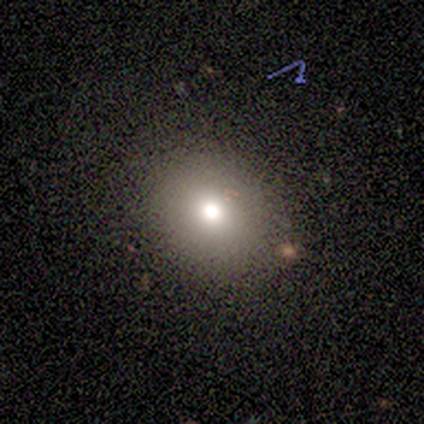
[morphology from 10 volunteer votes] A smooth galaxy with no disk features (80%) that is in between round and cigar-shaped (62%).

Vote fractions:
- Smooth or featured? smooth: 80% / star or artifact: 20% / featured or disk: 0%
- How rounded? in between: 62% / round: 38% / cigar-shaped: 0%
- Merging? none: 75% / major disturbance: 25% / minor disturbance: 0% / merger: 0%